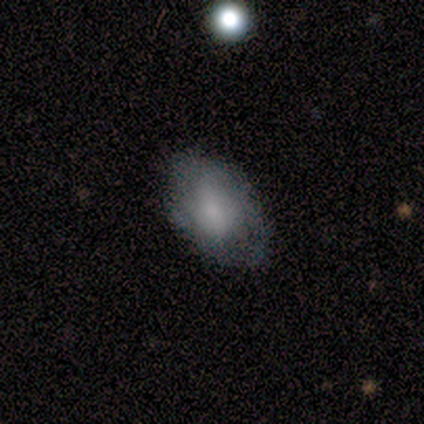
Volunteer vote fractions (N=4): smooth_or_featured: smooth (p=0.75) [alt: featured or disk p=0.25]
how_rounded: in between (p=0.67) [alt: round p=0.33]
merging: none (p=0.75) [alt: minor disturbance p=0.25]